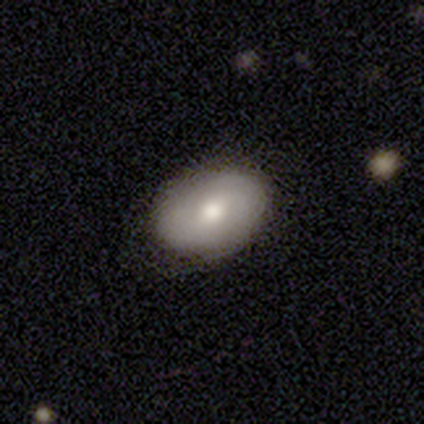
smooth-or-featured: smooth: 68% | featured or disk: 29% | star or artifact: 3%
  how-rounded: in between: 88% | round: 12% | cigar-shaped: 0%
  merging: none: 84% | minor disturbance: 8% | major disturbance: 8% | merger: 0%